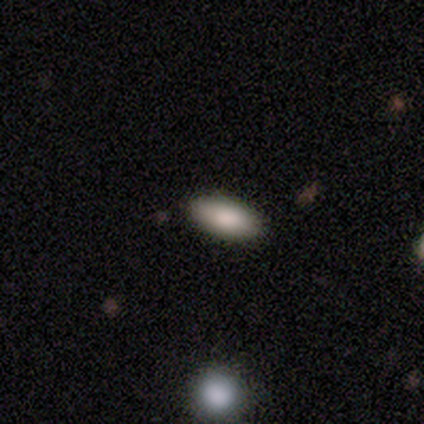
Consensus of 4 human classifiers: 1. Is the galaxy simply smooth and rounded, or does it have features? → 100% smooth, 0% featured or disk, 0% star or artifact.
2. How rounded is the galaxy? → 75% in between, 25% cigar-shaped, 0% round.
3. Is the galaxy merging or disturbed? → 100% none, 0% minor disturbance, 0% major disturbance, 0% merger.